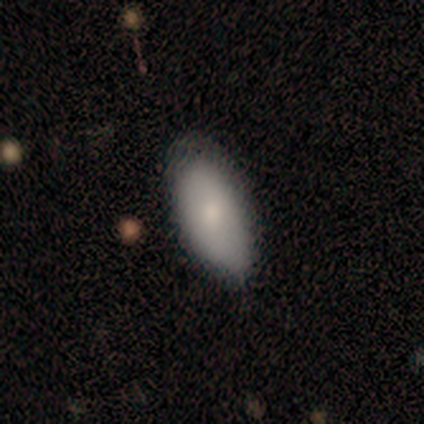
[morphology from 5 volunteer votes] type=smooth (80%); roundness=in between (100%); merging=none (60%).